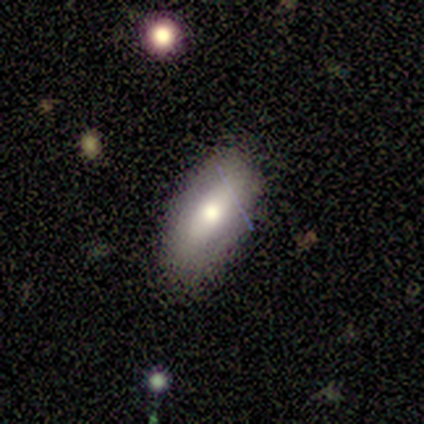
Smooth or featured? smooth (33%, tied with featured or disk and star or artifact)
How rounded? in between (100%)
Merging? none (100%)